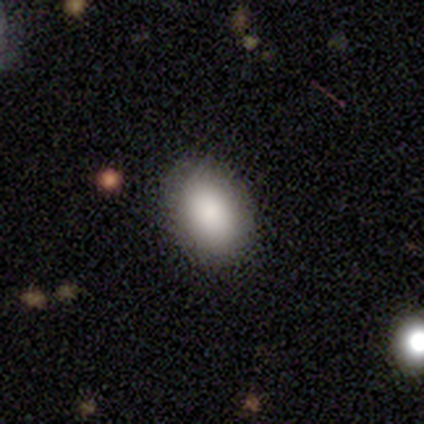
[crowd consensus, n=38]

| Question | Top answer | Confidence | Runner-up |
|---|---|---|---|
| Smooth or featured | smooth | 82% | star or artifact (11%) |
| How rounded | in between | 77% | round (23%) |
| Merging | none | 91% | minor disturbance (9%) |